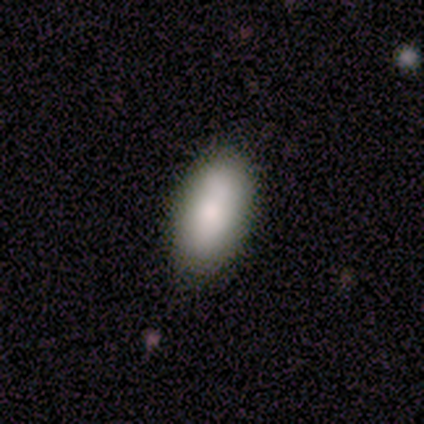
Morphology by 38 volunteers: Smooth or featured?
  - smooth: 89% *
  - featured or disk: 8%
  - star or artifact: 3%
How rounded?
  - in between: 97% *
  - cigar-shaped: 3%
  - round: 0%
Merging?
  - none: 89% *
  - merger: 5%
  - minor disturbance: 3%
  - major disturbance: 3%